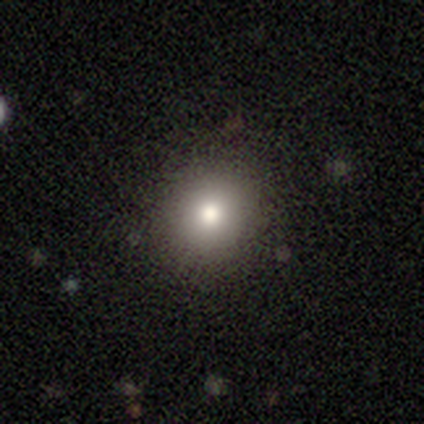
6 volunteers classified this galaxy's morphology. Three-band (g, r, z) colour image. It shows a smooth galaxy with no disk features (100%) that is round (83%). Merging: none (100%).